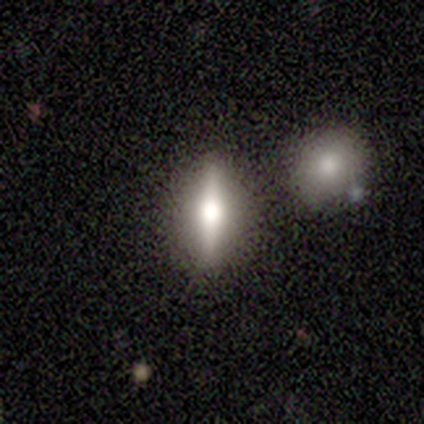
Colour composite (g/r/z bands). It shows a smooth galaxy with no disk features (40%, tied with star or artifact) that is cigar-shaped (100%). Merging: none (100%).